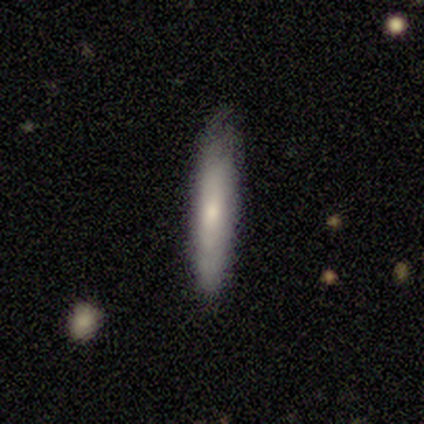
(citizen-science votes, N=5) smooth-or-featured: featured or disk: 60% | smooth: 40% | star or artifact: 0%
  disk-edge-on: no: 67% | yes: 33%
    bar: weak: 50% (tied) | no: 50% (tied) | strong: 0%
    has-spiral-arms: yes: 50% (tied) | no: 50% (tied)
      spiral-winding: tight: 100% | medium: 0% | loose: 0%
      spiral-arm-count: 2: 100% | 1: 0% | 3: 0% | 4: 0% | more than 4: 0% | can't tell: 0%
    bulge-size: moderate: 100% | dominant: 0% | large: 0% | small: 0% | none: 0%
  merging: none: 60% | minor disturbance: 20% | major disturbance: 20% | merger: 0%